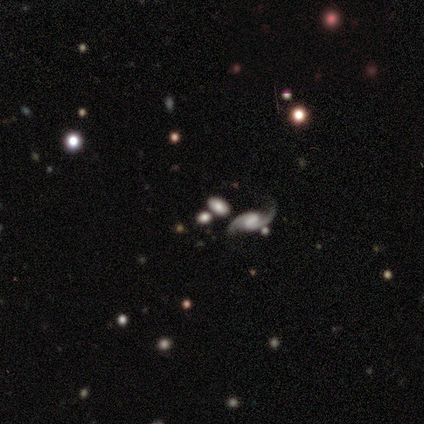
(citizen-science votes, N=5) This is clearly a featured or disk galaxy (80%). It is clearly not viewed edge-on (100%). Bar: possibly weak (50%, tied with no). Spiral arm pattern: clearly yes (100%). Spiral arm count: clearly 2 (100%). Spiral winding: clearly loose (100%). Central bulge: likely large (75%). Merging: clearly none (80%).